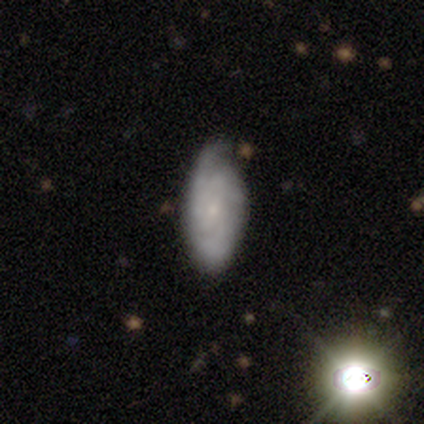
featured or disk 49%, smooth 44%, star or artifact 8%. Down the decision tree: edge-on disk — no (89%); bar — no (82%); spiral arms — yes (94%); spiral arm count — can't tell (50%); spiral winding — tight (56%); bulge size — small (82%); merging — none (67%).